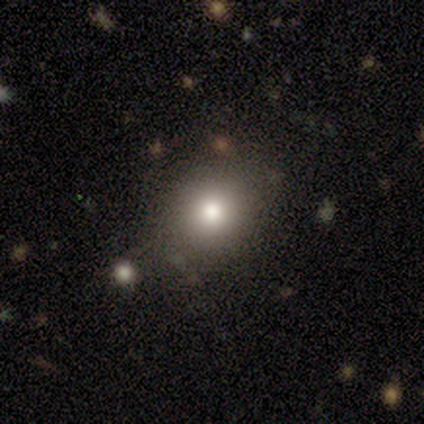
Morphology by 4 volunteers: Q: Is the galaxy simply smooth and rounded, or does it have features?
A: smooth — 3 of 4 (75%).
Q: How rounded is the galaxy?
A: round — 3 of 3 (100%).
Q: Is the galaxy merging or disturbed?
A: none — 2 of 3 (67%).